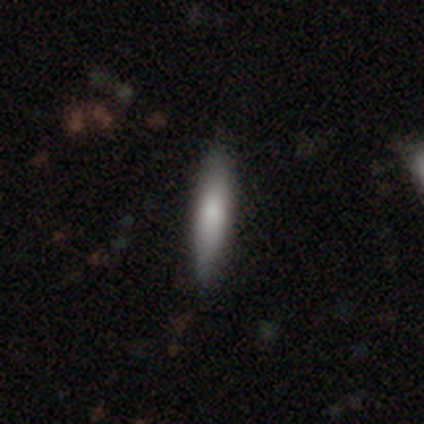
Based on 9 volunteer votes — Overall: smooth (67%). How rounded: cigar-shaped (67%; in between 33%). Merging: none (100%).